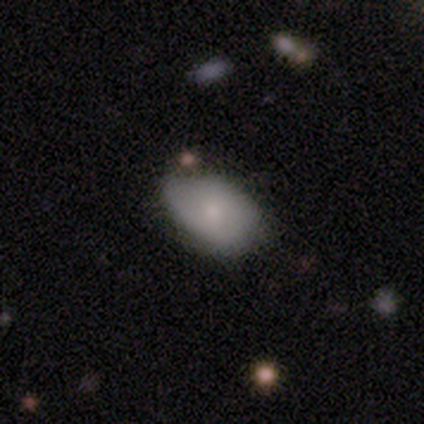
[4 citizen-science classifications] Smooth or featured? 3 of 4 (75%) said smooth. How rounded? 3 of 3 (100%) said in between. Merging? 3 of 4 (75%) said none.